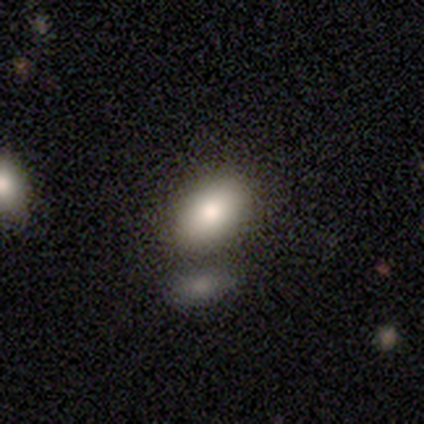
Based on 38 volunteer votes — Overall: smooth (76%). How rounded: in between (93%). Merging: none (73%).